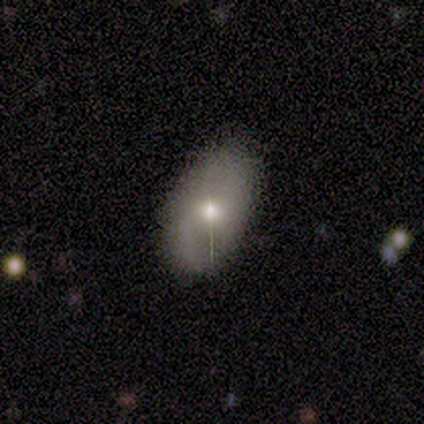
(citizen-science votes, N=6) featured or disk 50%, smooth 33%, star or artifact 17%. Down the decision tree: edge-on disk — no (100%); bar — no (100%); spiral arms — no (67%); bulge size — moderate (100%); merging — none (80%).